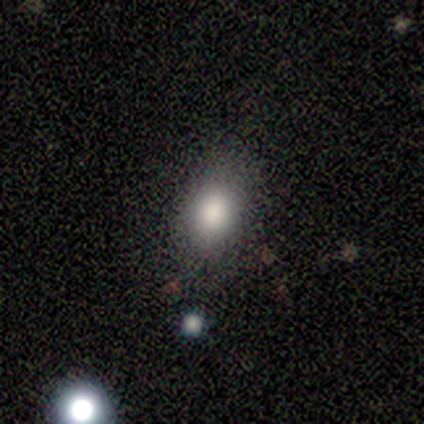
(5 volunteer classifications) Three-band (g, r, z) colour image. It shows a smooth galaxy with no disk features (60%) that is in between round and cigar-shaped (100%). Merging: none (50%, tied with minor disturbance).